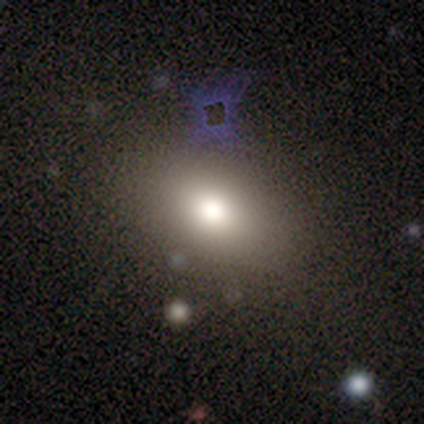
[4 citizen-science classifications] Morphology: type=smooth (75%); roundness=in between (100%); merging=none (75%).